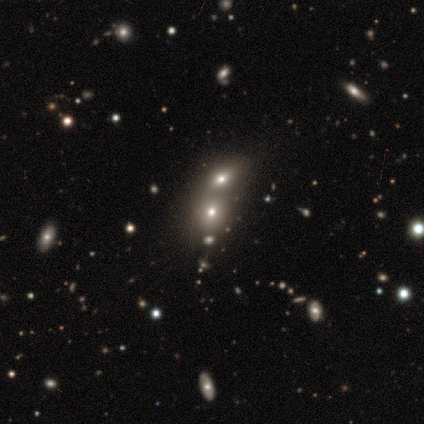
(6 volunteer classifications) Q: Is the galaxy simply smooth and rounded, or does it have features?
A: smooth — 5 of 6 (83%).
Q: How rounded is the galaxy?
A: round — 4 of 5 (80%).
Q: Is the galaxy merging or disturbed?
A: none — 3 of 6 (50%).